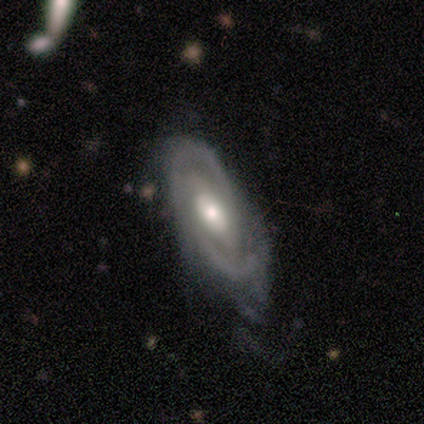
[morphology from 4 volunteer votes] Smooth or featured?
  - featured or disk: 100% *
  - smooth: 0%
  - star or artifact: 0%
Edge-on disk?
  - no: 100% *
  - yes: 0%
Bar?
  - weak: 75% *
  - strong: 25%
  - no: 0%
Spiral arms?
  - yes: 100% *
  - no: 0%
Spiral winding?
  - tight: 75% *
  - loose: 25%
  - medium: 0%
Spiral arm count?
  - 3: 50% *
  - 2: 25%
  - more than 4: 25%
  - 1: 0%
  - 4: 0%
  - can't tell: 0%
Bulge size?
  - moderate: 100% *
  - dominant: 0%
  - large: 0%
  - small: 0%
  - none: 0%
Merging?
  - none: 50% *
  - minor disturbance: 25%
  - major disturbance: 25%
  - merger: 0%